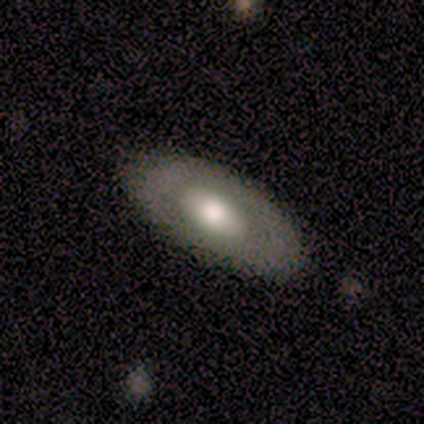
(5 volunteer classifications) Smooth or featured: smooth — 100%
How rounded: in between — 100%
Merging: none — 100%